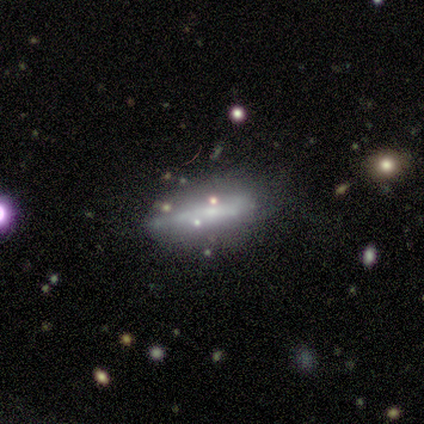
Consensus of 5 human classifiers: This is likely a smooth galaxy (60%). How rounded: likely cigar-shaped (67%). Merging: marginally none (40%).